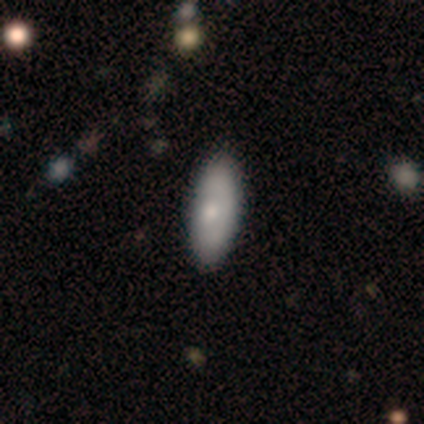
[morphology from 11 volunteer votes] A smooth galaxy with no disk features (73%) that is in between round and cigar-shaped (100%). Merging: none (100%).